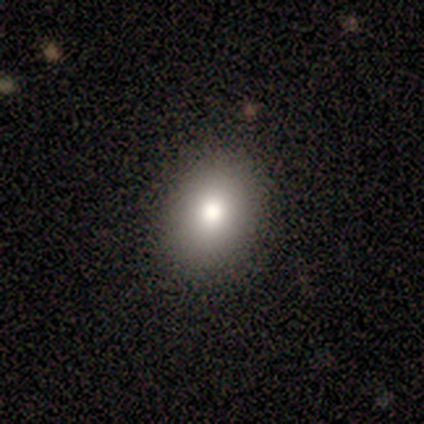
smooth 75%, featured or disk 25%, star or artifact 0%. Down the decision tree: how rounded — round (100%); merging — none (50%, tied with minor disturbance).